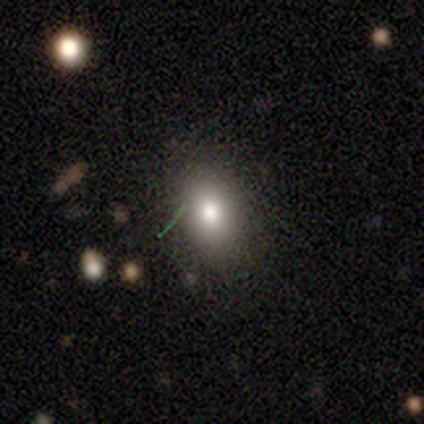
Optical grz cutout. It shows a smooth galaxy with no disk features (100%) that is in between round and cigar-shaped (100%). Merging: none (100%).